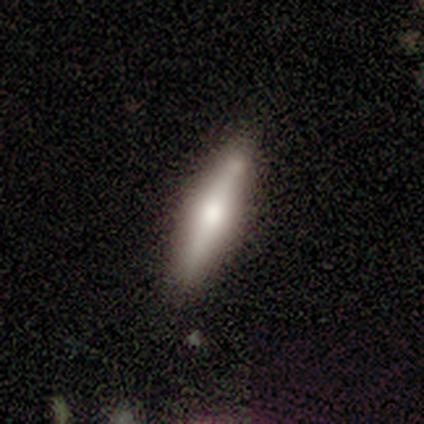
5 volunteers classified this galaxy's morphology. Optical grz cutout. It shows a featured or disk galaxy (60%) viewed edge-on (100%) with a rounded central bulge (100%). Merging: none (100%).